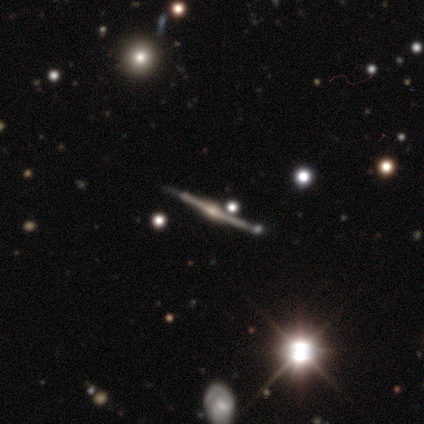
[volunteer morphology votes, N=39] type=featured or disk (79%); edge-on=yes (90%); edge-on bulge=rounded (96%); merging=none (72%).